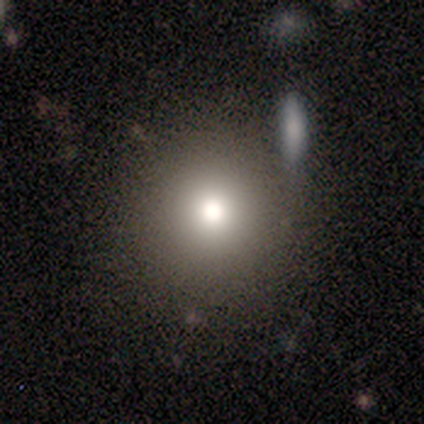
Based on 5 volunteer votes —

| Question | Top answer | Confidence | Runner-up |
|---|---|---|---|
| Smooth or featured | smooth | 60% | featured or disk (20%) |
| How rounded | round | 100% | — |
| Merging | none | 100% | — |